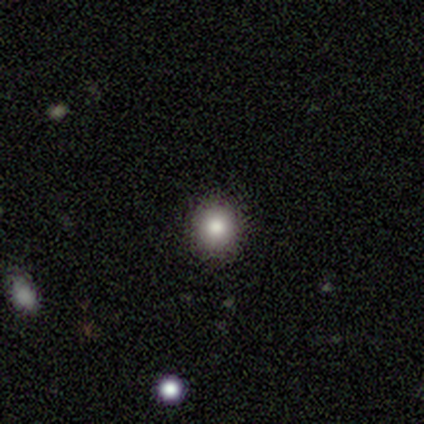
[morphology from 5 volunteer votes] type=smooth (100%); roundness=round (100%); merging=none (100%).